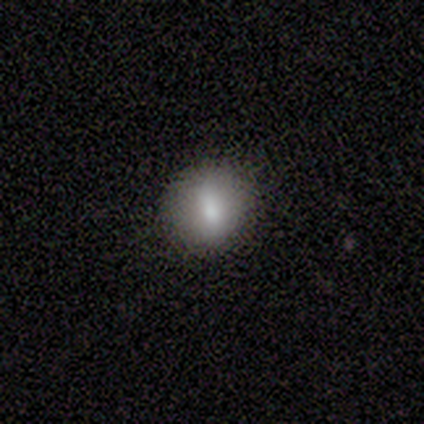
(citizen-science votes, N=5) Smooth or featured?
  - smooth: 80% *
  - featured or disk: 20%
  - star or artifact: 0%
How rounded?
  - round: 100% *
  - in between: 0%
  - cigar-shaped: 0%
Merging?
  - none: 100% *
  - minor disturbance: 0%
  - major disturbance: 0%
  - merger: 0%